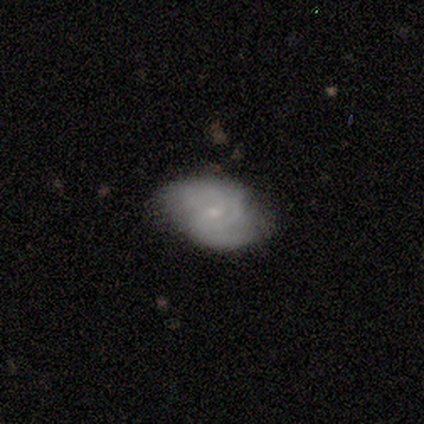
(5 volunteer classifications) A featured or disk galaxy (100%) with no bar (60%), 2 (60%) tight (80%) spiral arms (100%) and a small central bulge (100%).

Vote fractions:
- Smooth or featured? featured or disk: 100% / smooth: 0% / star or artifact: 0%
- Edge-on disk? no: 100% / yes: 0%
- Bar? no: 60% / weak: 40% / strong: 0%
- Spiral arms? yes: 100% / no: 0%
- Spiral winding? tight: 80% / medium: 20% / loose: 0%
- Spiral arm count? 2: 60% / 3: 20% / can't tell: 20% / 1: 0% / 4: 0% / more than 4: 0%
- Bulge size? small: 100% / dominant: 0% / large: 0% / moderate: 0% / none: 0%
- Merging? none: 80% / minor disturbance: 20% / major disturbance: 0% / merger: 0%